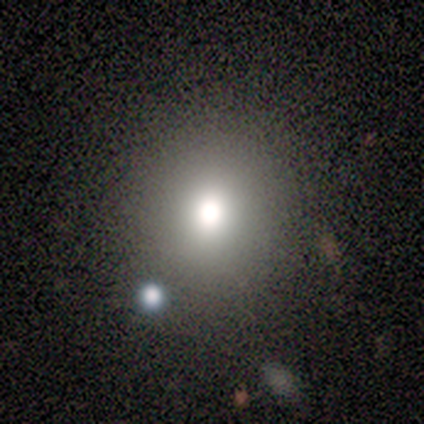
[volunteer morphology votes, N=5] Smooth or featured? 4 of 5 (80%) said smooth. How rounded? 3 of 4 (75%) said round. Merging? 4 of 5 (80%) said none.